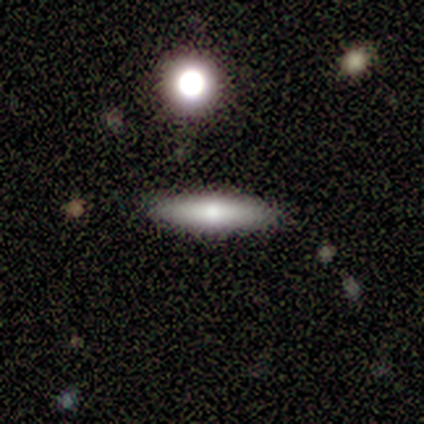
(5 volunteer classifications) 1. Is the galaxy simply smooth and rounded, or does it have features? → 60% featured or disk, 20% smooth, 20% star or artifact.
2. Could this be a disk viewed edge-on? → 100% yes, 0% no.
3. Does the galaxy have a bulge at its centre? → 67% rounded, 33% boxy, 0% none.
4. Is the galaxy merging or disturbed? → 100% none, 0% minor disturbance, 0% major disturbance, 0% merger.